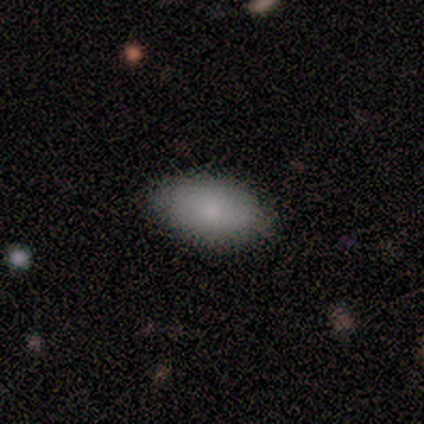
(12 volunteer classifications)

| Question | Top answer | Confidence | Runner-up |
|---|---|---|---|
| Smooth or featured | smooth | 100% | — |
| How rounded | in between | 100% | — |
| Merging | none | 75% | minor disturbance (17%) |